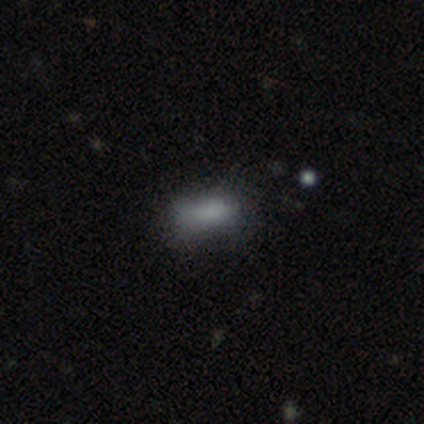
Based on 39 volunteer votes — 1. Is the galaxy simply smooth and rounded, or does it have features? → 69% smooth, 18% star or artifact, 13% featured or disk.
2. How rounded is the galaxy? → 78% in between, 11% round, 11% cigar-shaped.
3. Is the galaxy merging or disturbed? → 66% none, 25% minor disturbance, 9% major disturbance, 0% merger.